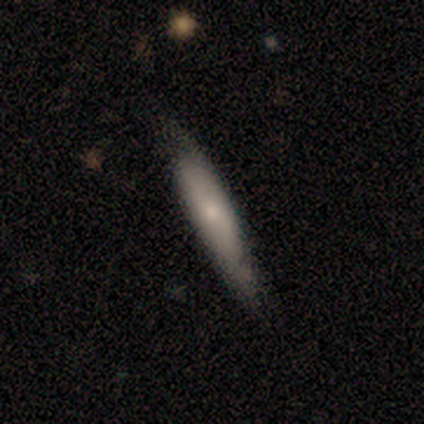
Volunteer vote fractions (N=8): smooth_or_featured: smooth (p=0.62) [alt: featured or disk p=0.38]
how_rounded: cigar-shaped (p=0.60) [alt: round p=0.20]
merging: none (p=0.38) [tied with: minor disturbance p=0.38]